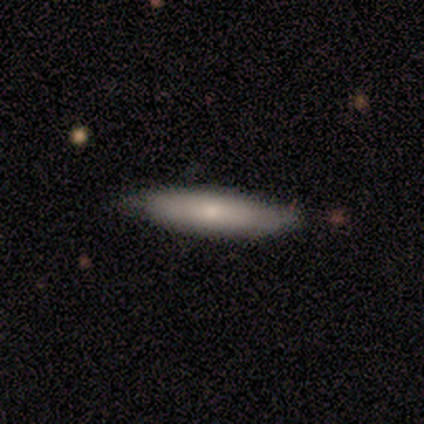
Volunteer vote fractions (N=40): Volunteers were most divided on "smooth or featured": smooth: 78%, featured or disk: 18%, star or artifact: 5%. More confident: merging — none (89%); how rounded — cigar-shaped (84%).